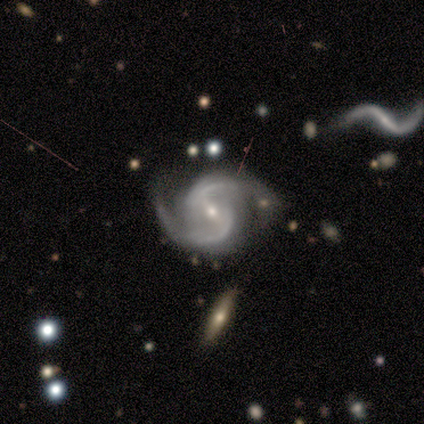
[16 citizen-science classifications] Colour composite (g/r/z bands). It shows a featured or disk galaxy (100%) with a weak bar (75%), 2 (100%) medium (81%) spiral arms (100%) and a small central bulge (56%). Merging: none (88%).